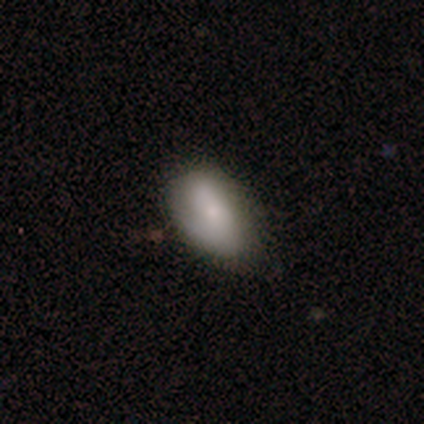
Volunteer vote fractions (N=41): Smooth or featured?
  - smooth: 71% *
  - featured or disk: 27%
  - star or artifact: 2%
How rounded?
  - in between: 93% *
  - round: 7%
  - cigar-shaped: 0%
Merging?
  - none: 65% *
  - minor disturbance: 28%
  - major disturbance: 5%
  - merger: 2%